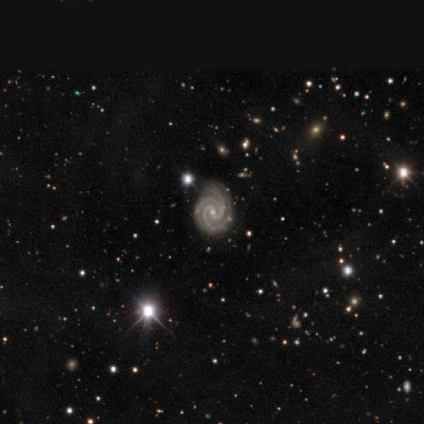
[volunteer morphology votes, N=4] Smooth or featured? 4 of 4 (100%) said featured or disk. Edge-on disk? 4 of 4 (100%) said no. Bar? 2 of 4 (50%) said weak. Spiral arms? 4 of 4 (100%) said yes. Spiral winding? 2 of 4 (50%, tied with medium) said tight. Spiral arm count? 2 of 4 (50%, tied with 3) said 2. Bulge size? 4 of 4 (100%) said small. Merging? 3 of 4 (75%) said none.